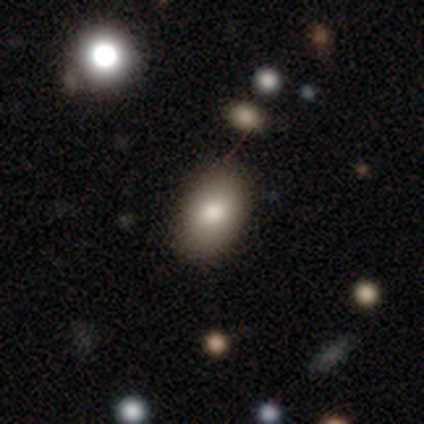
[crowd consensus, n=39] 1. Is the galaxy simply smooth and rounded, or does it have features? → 92% smooth, 5% star or artifact, 3% featured or disk.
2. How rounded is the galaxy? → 89% in between, 8% round, 3% cigar-shaped.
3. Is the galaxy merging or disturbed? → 57% none, 8% merger, 3% minor disturbance, 3% major disturbance.